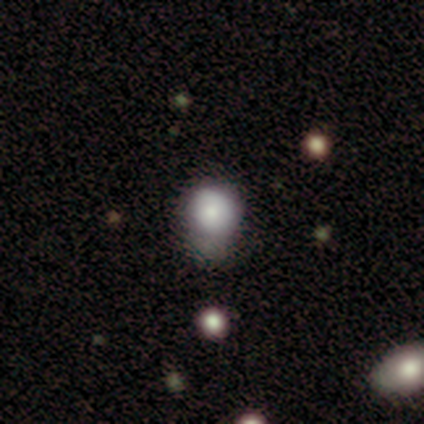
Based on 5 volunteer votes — Smooth or featured? 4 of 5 (80%) said smooth. How rounded? 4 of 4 (100%) said round. Merging? 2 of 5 (40%, tied with major disturbance) said none.